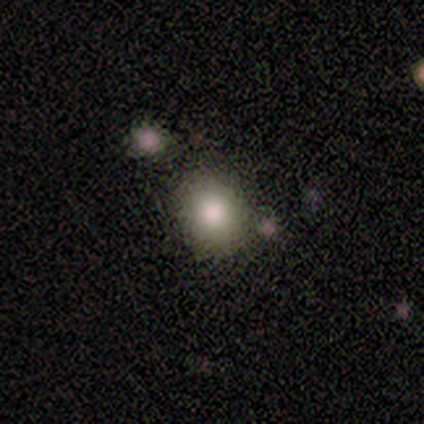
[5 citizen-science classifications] Volunteers were most divided on "how rounded": round: 60%, in between: 40%, cigar-shaped: 0%. More confident: smooth or featured — smooth (100%); merging — none (100%).